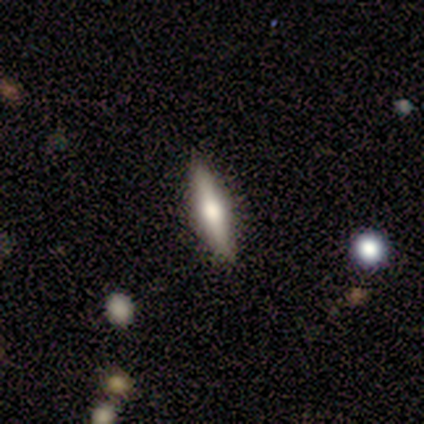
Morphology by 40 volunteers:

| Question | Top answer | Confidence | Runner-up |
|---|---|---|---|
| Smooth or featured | featured or disk | 52% | smooth (45%) |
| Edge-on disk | yes | 95% | no (5%) |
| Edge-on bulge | rounded | 100% | — |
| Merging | none | 87% | minor disturbance (5%) |